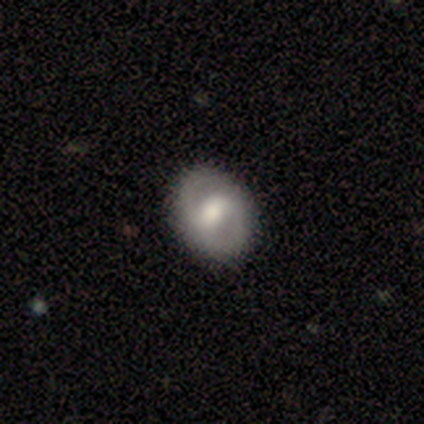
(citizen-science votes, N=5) Smooth or featured? 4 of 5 (80%) said featured or disk. Edge-on disk? 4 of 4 (100%) said no. Bar? 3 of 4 (75%) said weak. Spiral arms? 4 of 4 (100%) said yes. Spiral winding? 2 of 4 (50%) said tight. Spiral arm count? 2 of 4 (50%, tied with can't tell) said 2. Bulge size? 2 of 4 (50%, tied with moderate) said large. Merging? 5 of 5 (100%) said none.